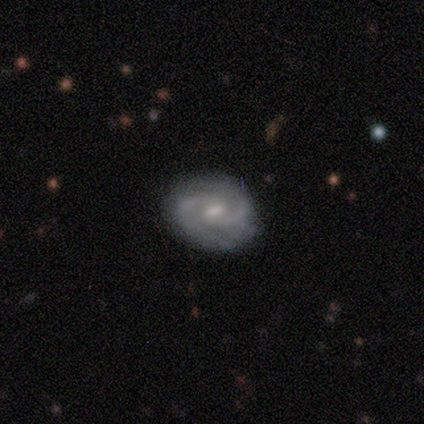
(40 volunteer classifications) Smooth or featured? featured or disk (90%)
Edge-on disk? no (100%)
Bar? weak (56%)
Spiral arms? yes (89%)
Spiral winding? tight (50%)
Spiral arm count? 2 (78%)
Bulge size? small (64%)
Merging? none (74%)